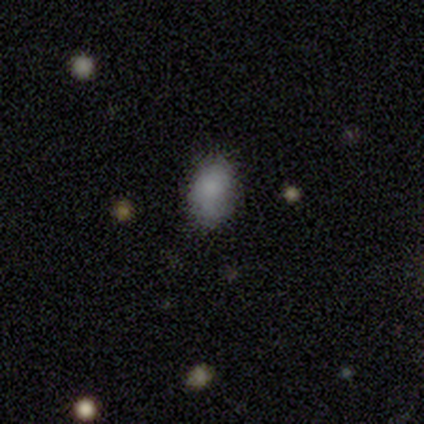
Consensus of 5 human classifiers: Smooth or featured? smooth (100%)
How rounded? in between (100%)
Merging? none (40%, tied with minor disturbance)